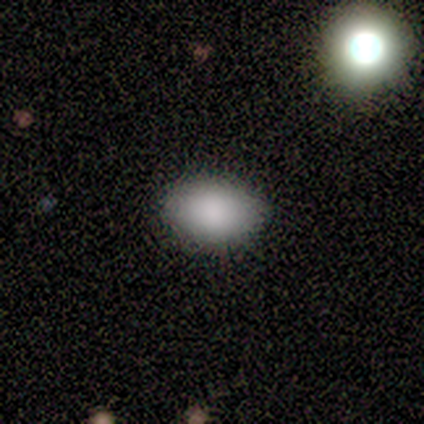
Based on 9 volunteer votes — Smooth or featured? 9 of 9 (100%) said smooth. How rounded? 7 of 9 (78%) said in between. Merging? 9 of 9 (100%) said none.